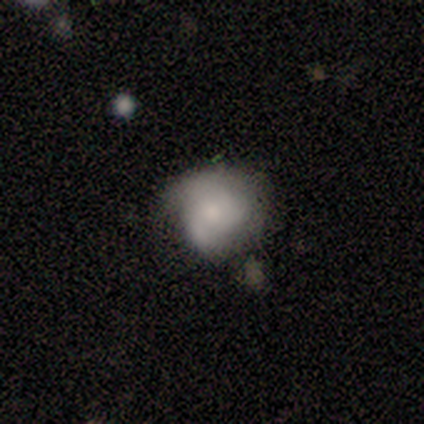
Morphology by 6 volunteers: Smooth or featured? 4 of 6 (67%) said smooth. How rounded? 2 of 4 (50%, tied with in between) said round. Merging? 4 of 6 (67%) said minor disturbance.